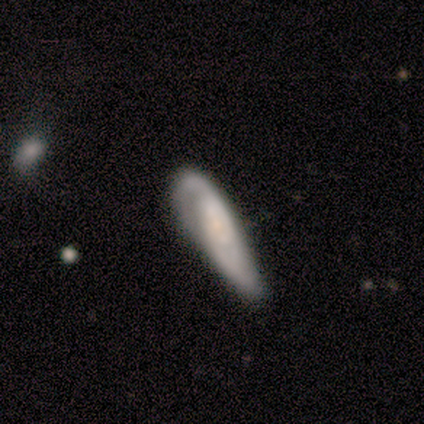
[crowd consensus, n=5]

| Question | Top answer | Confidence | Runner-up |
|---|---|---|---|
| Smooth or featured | smooth | 60% | featured or disk (40%) |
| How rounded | cigar-shaped | 100% | — |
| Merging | minor disturbance | 60% | none (20%) |